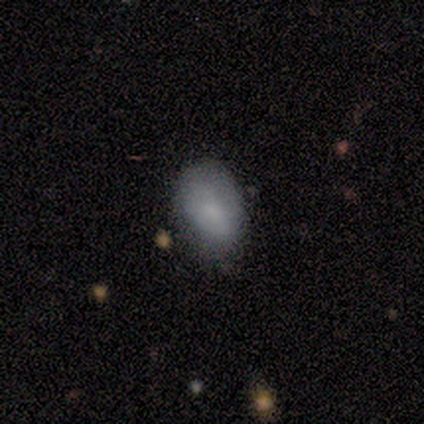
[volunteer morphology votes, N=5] Consensus on every question: smooth or featured — smooth (100%); how rounded — in between (100%); merging — none (100%).